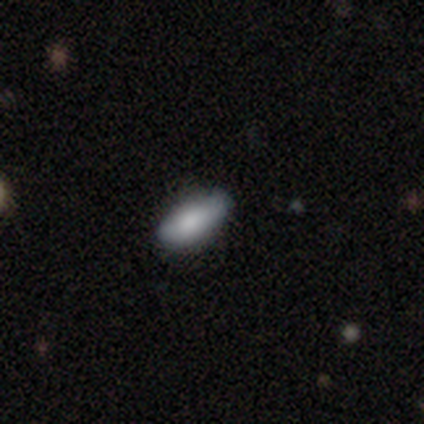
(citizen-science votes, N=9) Smooth or featured? smooth (89%)
How rounded? in between (88%)
Merging? none (88%)